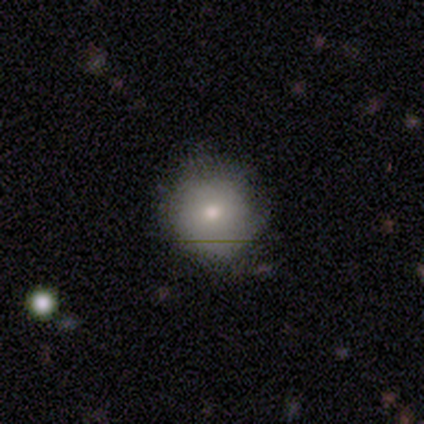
Overall: smooth (76%). How rounded: round (90%). Merging: none (84%).